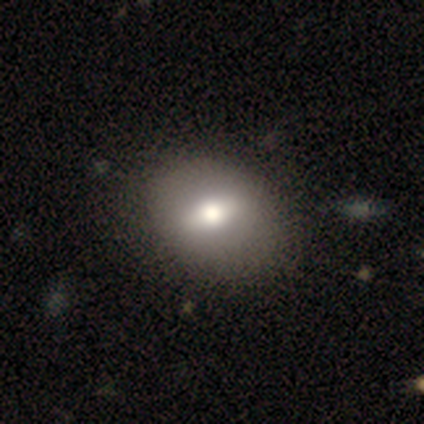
Smooth or featured? smooth (57%)
How rounded? in between (62%)
Merging? none (100%)